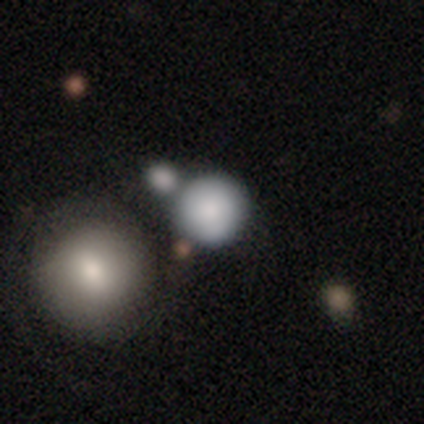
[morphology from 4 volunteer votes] A smooth galaxy with no disk features (75%) that is round (100%). Merging: none (100%).